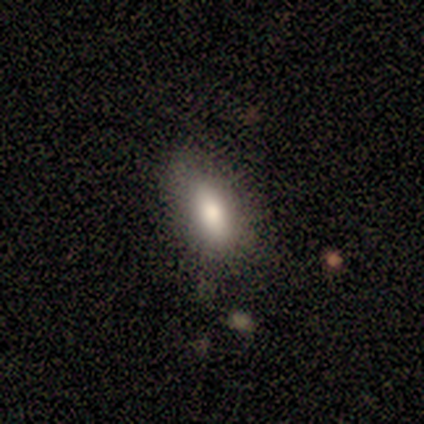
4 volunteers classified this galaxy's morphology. Smooth or featured?
  - smooth: 100% *
  - featured or disk: 0%
  - star or artifact: 0%
How rounded?
  - in between: 100% *
  - round: 0%
  - cigar-shaped: 0%
Merging?
  - none: 75% *
  - minor disturbance: 25%
  - major disturbance: 0%
  - merger: 0%